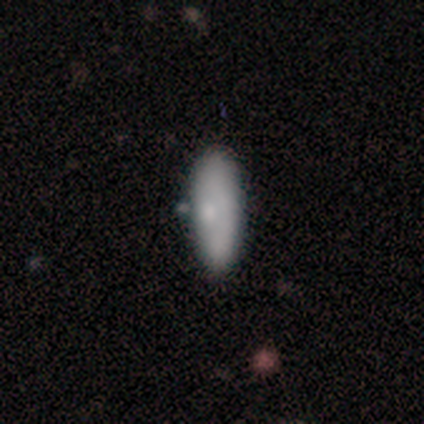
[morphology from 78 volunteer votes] This appears to be a smooth galaxy with no disk features (68%) that is in between round and cigar-shaped (62%). Merging: none (35%).